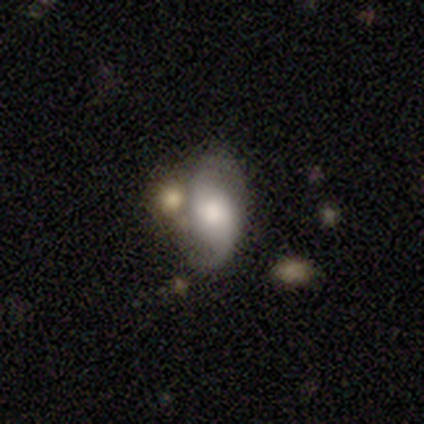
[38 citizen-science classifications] smooth_or_featured: featured or disk (p=0.66) [alt: smooth p=0.26]
disk_edge_on: no (p=0.96) [alt: yes p=0.04]
bar: no (p=0.67) [alt: weak p=0.21]
has_spiral_arms: yes (p=0.83) [alt: no p=0.17]
spiral_winding: loose (p=0.65) [alt: medium p=0.30]
spiral_arm_count: 2 (p=0.95) [alt: 1 p=0.05]
bulge_size: large (p=0.42) [alt: moderate p=0.29]
merging: none (p=0.43) [alt: minor disturbance p=0.29]